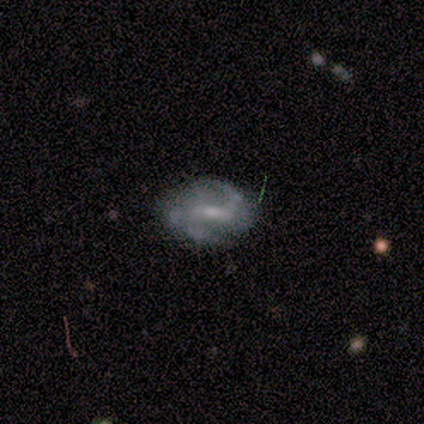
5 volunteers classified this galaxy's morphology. featured or disk 80%, smooth 20%, star or artifact 0%. Down the decision tree: edge-on disk — no (100%); bar — weak (75%); spiral arms — yes (75%); spiral arm count — 2 (67%); spiral winding — loose (67%); bulge size — moderate (75%); merging — none (60%).